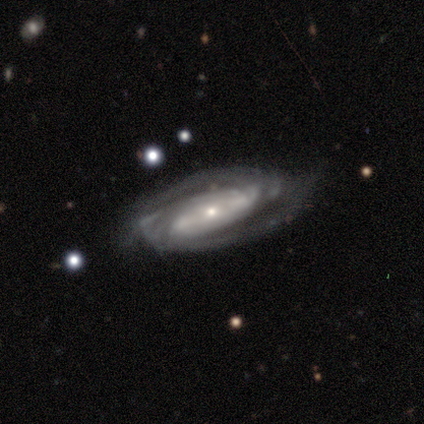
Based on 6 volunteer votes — Smooth or featured?
  - featured or disk: 100% *
  - smooth: 0%
  - star or artifact: 0%
Edge-on disk?
  - no: 100% *
  - yes: 0%
Bar?
  - no: 50% *
  - strong: 33%
  - weak: 17%
Spiral arms?
  - yes: 100% *
  - no: 0%
Spiral winding?
  - tight: 50% * (tied)
  - medium: 50% * (tied)
  - loose: 0%
Spiral arm count?
  - 2: 67% *
  - 4: 17%
  - can't tell: 17%
  - 1: 0%
  - 3: 0%
  - more than 4: 0%
Bulge size?
  - small: 100% *
  - dominant: 0%
  - large: 0%
  - moderate: 0%
  - none: 0%
Merging?
  - none: 83% *
  - minor disturbance: 17%
  - major disturbance: 0%
  - merger: 0%